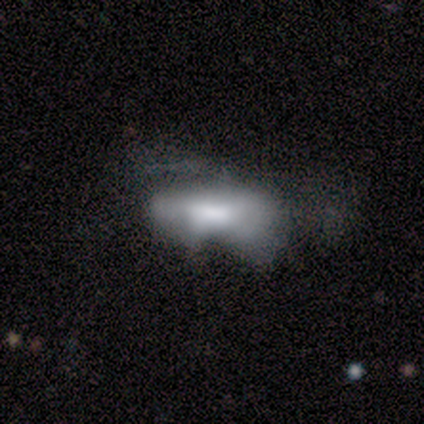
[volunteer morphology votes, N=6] Smooth or featured: smooth — 83% (featured or disk — 17%)
How rounded: in between — 100%
Merging: none — 50% (tied with major disturbance — 50%)